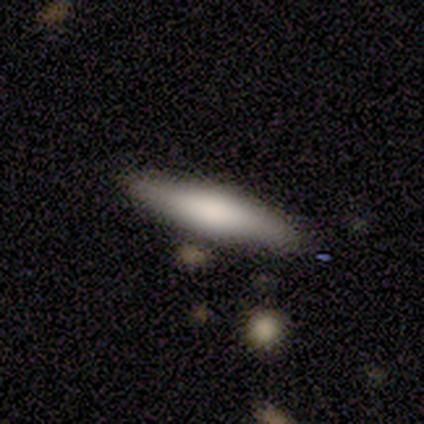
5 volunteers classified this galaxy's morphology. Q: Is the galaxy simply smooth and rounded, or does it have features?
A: smooth — 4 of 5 (80%).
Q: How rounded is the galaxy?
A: cigar-shaped — 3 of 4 (75%).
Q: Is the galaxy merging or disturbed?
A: none — 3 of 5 (60%).